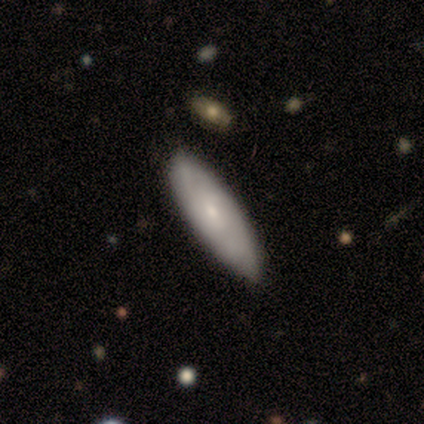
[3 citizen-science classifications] Smooth or featured? 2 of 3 (67%) said featured or disk. Edge-on disk? 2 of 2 (100%) said no. Bar? 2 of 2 (100%) said no. Spiral arms? 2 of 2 (100%) said no. Bulge size? 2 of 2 (100%) said small. Merging? 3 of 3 (100%) said none.